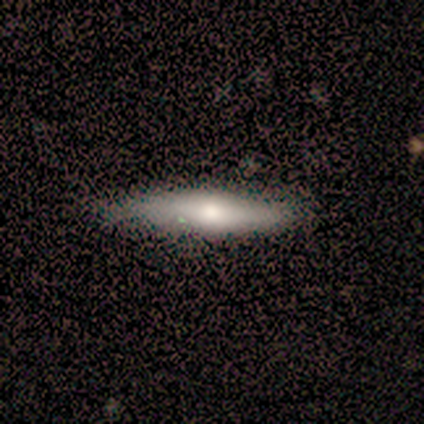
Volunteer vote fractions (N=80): This is likely a smooth galaxy (70%). How rounded: likely cigar-shaped (79%). Merging: marginally none (42%).